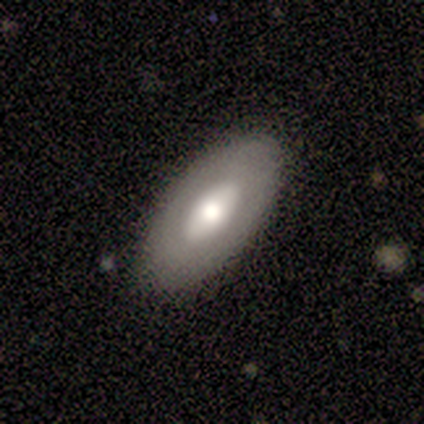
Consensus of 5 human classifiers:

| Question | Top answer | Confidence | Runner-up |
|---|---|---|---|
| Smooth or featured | featured or disk | 80% | smooth (20%) |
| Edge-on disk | no | 75% | yes (25%) |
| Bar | no | 100% | — |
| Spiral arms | no | 100% | — |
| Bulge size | moderate | 67% | large (33%) |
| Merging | none | 100% | — |